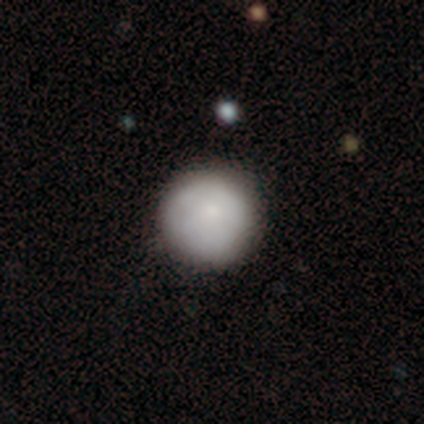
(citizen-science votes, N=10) smooth 90%, featured or disk 10%, star or artifact 0%. Down the decision tree: how rounded — round (100%); merging — none (80%).